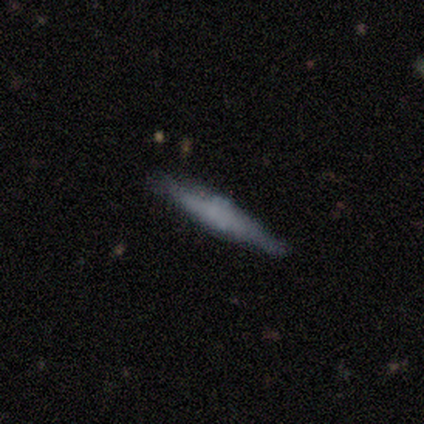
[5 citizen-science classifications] Smooth or featured? 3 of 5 (60%) said featured or disk. Edge-on disk? 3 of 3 (100%) said yes. Edge-on bulge? 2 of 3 (67%) said boxy. Merging? 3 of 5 (60%) said none.